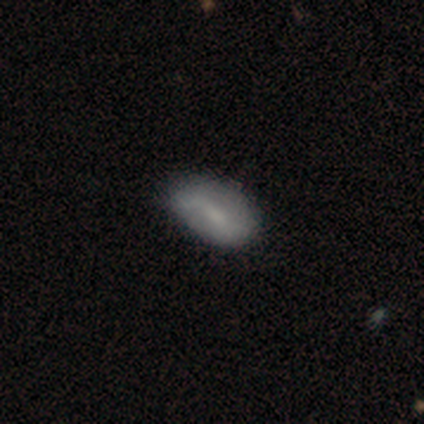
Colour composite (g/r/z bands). It shows a smooth galaxy with no disk features (75%) that is in between round and cigar-shaped (100%). Merging: none (75%).